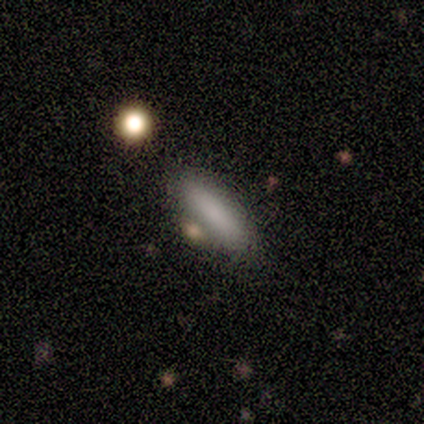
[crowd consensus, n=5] A smooth galaxy with no disk features (100%) that is cigar-shaped (80%).

Vote fractions:
- Smooth or featured? smooth: 100% / featured or disk: 0% / star or artifact: 0%
- How rounded? cigar-shaped: 80% / in between: 20% / round: 0%
- Merging? none: 40% / minor disturbance: 20% / major disturbance: 20% / merger: 20%